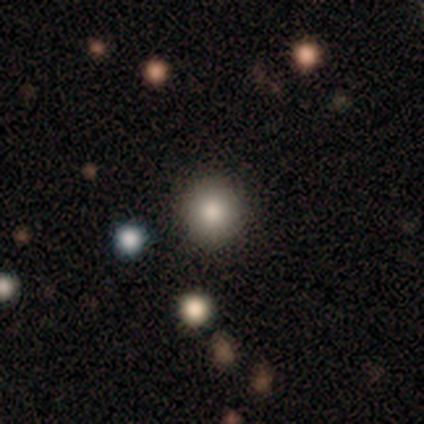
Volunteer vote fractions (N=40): Morphology: type=smooth (80%); roundness=round (91%); merging=none (94%).